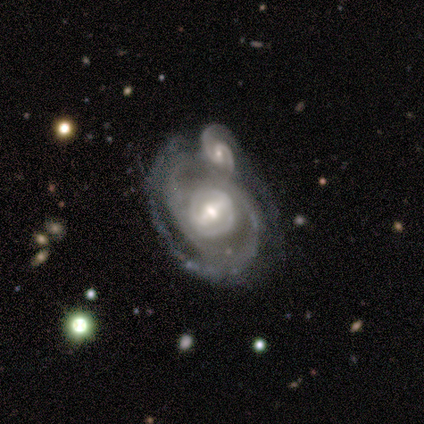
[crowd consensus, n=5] Smooth or featured? 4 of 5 (80%) said featured or disk. Edge-on disk? 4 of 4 (100%) said no. Bar? 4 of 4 (100%) said strong. Spiral arms? 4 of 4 (100%) said yes. Spiral winding? 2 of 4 (50%) said tight. Spiral arm count? 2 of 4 (50%, tied with 2) said 1. Bulge size? 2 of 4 (50%) said moderate. Merging? 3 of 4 (75%) said merger.